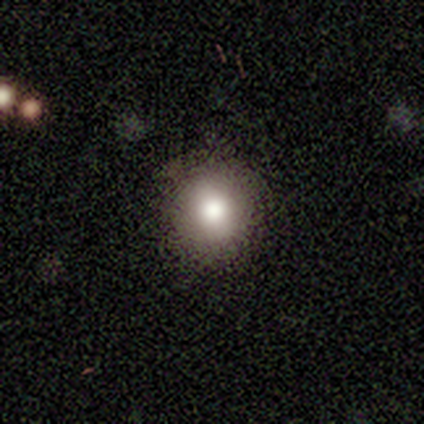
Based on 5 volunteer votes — smooth-or-featured: smooth: 80% | star or artifact: 20% | featured or disk: 0%
  how-rounded: round: 75% | in between: 25% | cigar-shaped: 0%
  merging: none: 100% | minor disturbance: 0% | major disturbance: 0% | merger: 0%